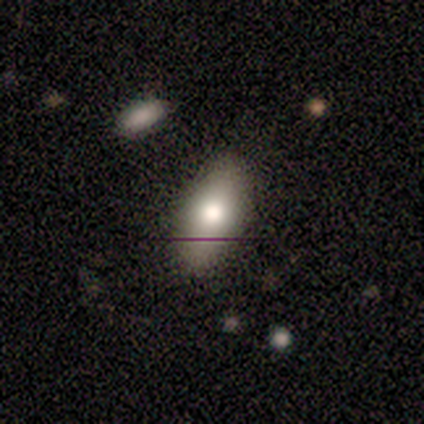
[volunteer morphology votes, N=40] A smooth galaxy with no disk features (68%) that is in between round and cigar-shaped (96%). Merging: none (67%).